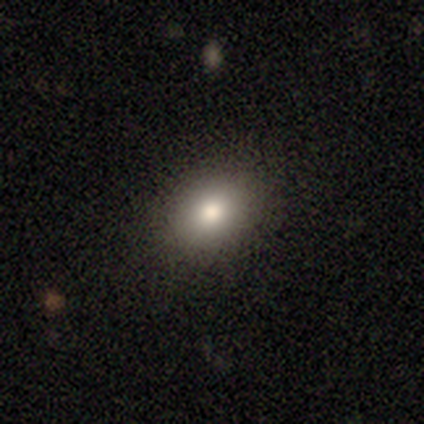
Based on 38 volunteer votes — This is likely a smooth galaxy (74%). How rounded: likely in between (61%). Merging: clearly none (82%).